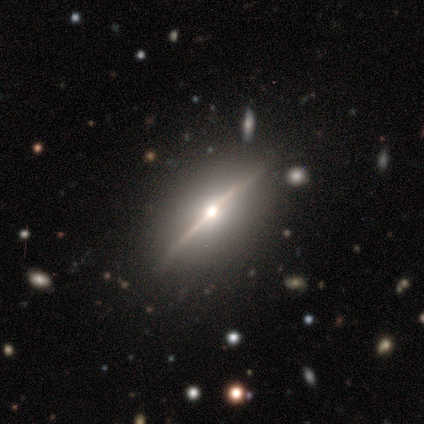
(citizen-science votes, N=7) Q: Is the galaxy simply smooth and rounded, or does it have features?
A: featured or disk — 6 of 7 (86%).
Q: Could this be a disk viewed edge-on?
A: yes — 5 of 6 (83%).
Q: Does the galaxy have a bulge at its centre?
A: rounded — 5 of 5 (100%).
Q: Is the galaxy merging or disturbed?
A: none — 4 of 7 (57%).